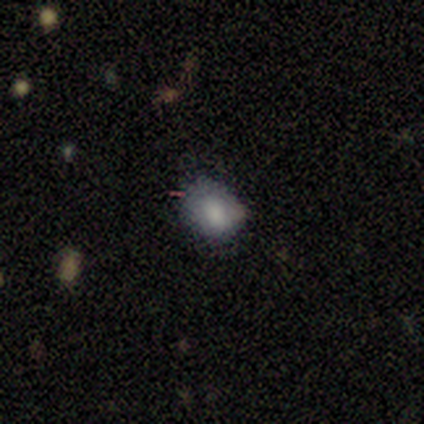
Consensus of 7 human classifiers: This is possibly a smooth galaxy (57%). How rounded: likely round (75%). Merging: likely none (60%).